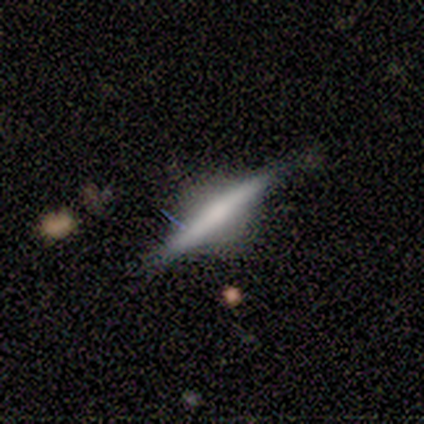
Volunteers were most divided on "merging": none: 67%, minor disturbance: 33%, major disturbance: 0%, merger: 0%. More confident: edge-on disk — yes (100%); edge-on bulge — rounded (71%); smooth or featured — featured or disk (64%).